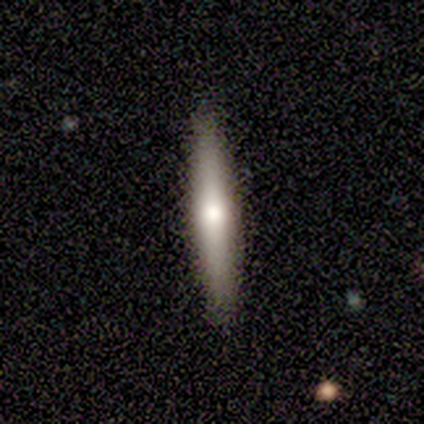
Smooth or featured? featured or disk (58%)
Edge-on disk? yes (98%)
Edge-on bulge? rounded (87%)
Merging? none (92%)